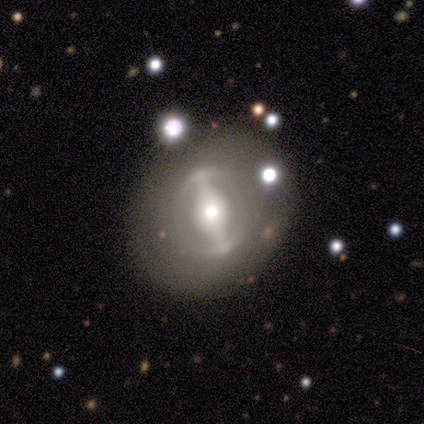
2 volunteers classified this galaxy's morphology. Volunteers were most divided on "smooth or featured" (2-way tie): smooth: 50%, featured or disk: 50%, star or artifact: 0%. More confident: how rounded — round (100%); merging — none (100%).